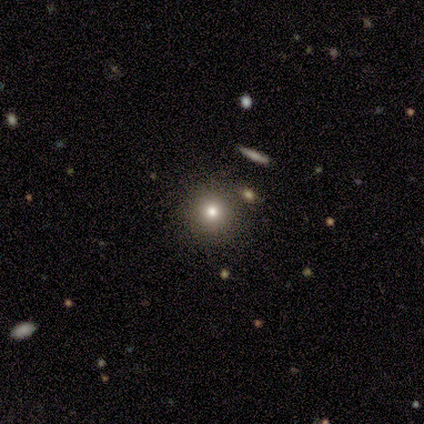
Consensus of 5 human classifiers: Morphology: type=smooth (80%); roundness=round (75%); merging=none (50%).